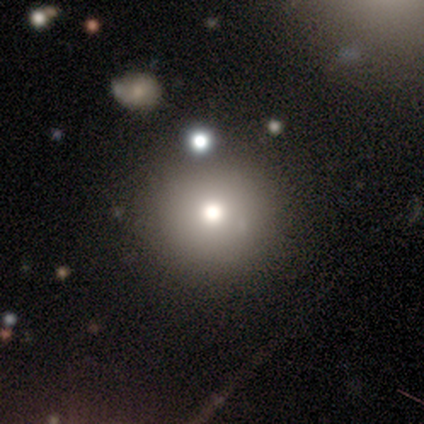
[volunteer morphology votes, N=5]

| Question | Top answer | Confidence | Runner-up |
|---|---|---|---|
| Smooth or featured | smooth | 80% | featured or disk (20%) |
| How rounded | round | 100% | — |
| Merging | none | 80% | minor disturbance (20%) |